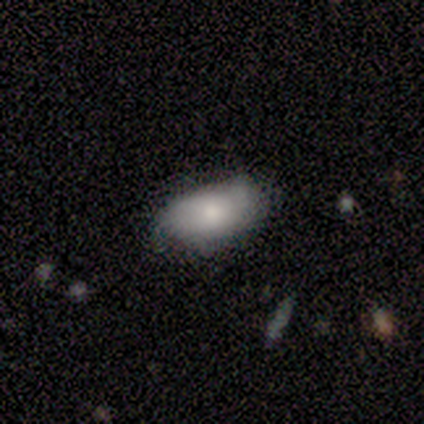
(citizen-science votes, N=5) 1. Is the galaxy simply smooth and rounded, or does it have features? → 80% smooth, 20% star or artifact, 0% featured or disk.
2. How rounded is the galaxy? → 100% in between, 0% round, 0% cigar-shaped.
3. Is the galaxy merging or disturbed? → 100% none, 0% minor disturbance, 0% major disturbance, 0% merger.